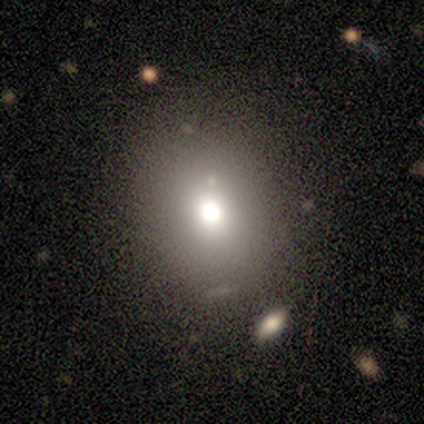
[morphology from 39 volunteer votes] A smooth galaxy with no disk features (64%) that is round (60%).

Vote fractions:
- Smooth or featured? smooth: 64% / star or artifact: 21% / featured or disk: 15%
- How rounded? round: 60% / in between: 40% / cigar-shaped: 0%
- Merging? none: 77% / minor disturbance: 13% / major disturbance: 10% / merger: 0%